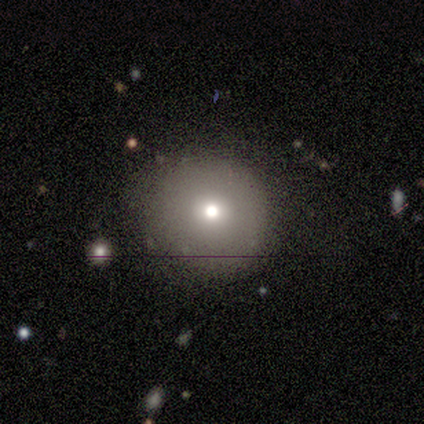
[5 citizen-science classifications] Morphology: type=smooth (80%); roundness=round (100%); merging=none (100%).